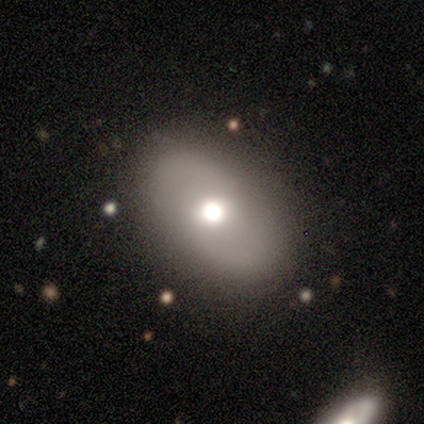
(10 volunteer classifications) Smooth or featured? featured or disk (60%)
Edge-on disk? no (100%)
Bar? no (83%)
Spiral arms? yes (50%, tied with no)
Spiral winding? medium (67%)
Spiral arm count? 2 (67%)
Bulge size? moderate (67%)
Merging? none (100%)